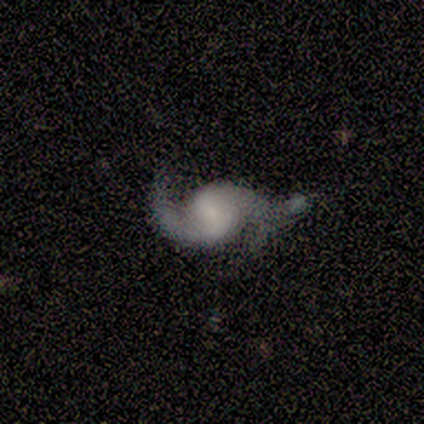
A featured or disk galaxy (95%) with no bar (43%), 2 (89%) loose (72%) spiral arms (97%) and a small central bulge (41%). Merging: none (61%).